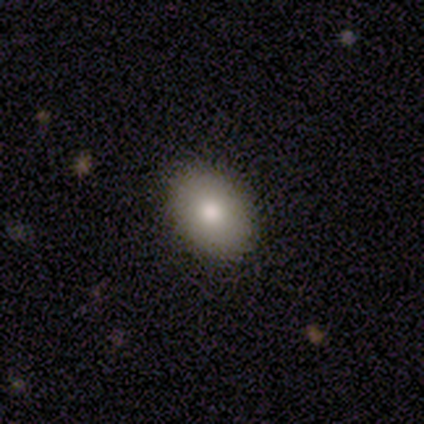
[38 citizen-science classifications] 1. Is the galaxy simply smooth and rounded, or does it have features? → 84% smooth, 13% featured or disk, 3% star or artifact.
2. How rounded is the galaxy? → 66% in between, 31% round, 3% cigar-shaped.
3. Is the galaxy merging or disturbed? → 95% none, 5% minor disturbance, 0% major disturbance, 0% merger.